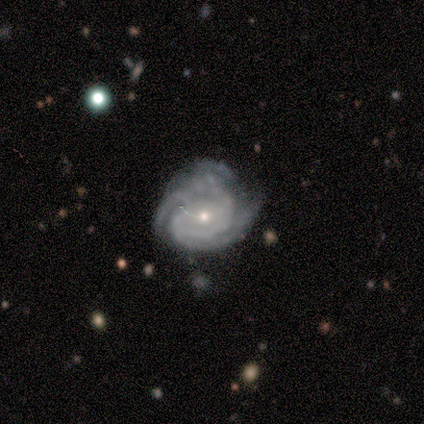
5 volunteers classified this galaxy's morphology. Volunteers were most divided on "spiral arm count" (2-way tie): 4: 40%, can't tell: 40%, 2: 20%, 1: 0%, 3: 0%, more than 4: 0%. More confident: smooth or featured — featured or disk (100%); edge-on disk — no (100%); bar — no (100%); spiral arms — yes (100%); merging — none (100%); bulge size — small (80%); spiral winding — tight (60%).